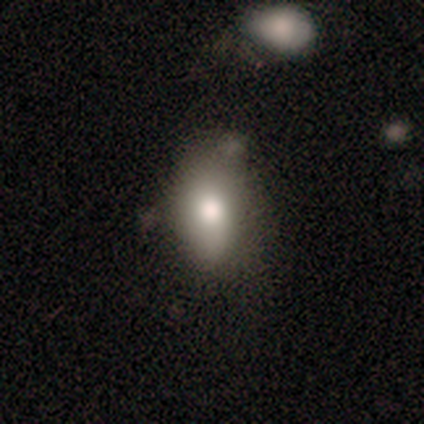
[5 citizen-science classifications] Smooth or featured? 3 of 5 (60%) said smooth. How rounded? 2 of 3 (67%) said in between. Merging? 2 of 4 (50%) said minor disturbance.